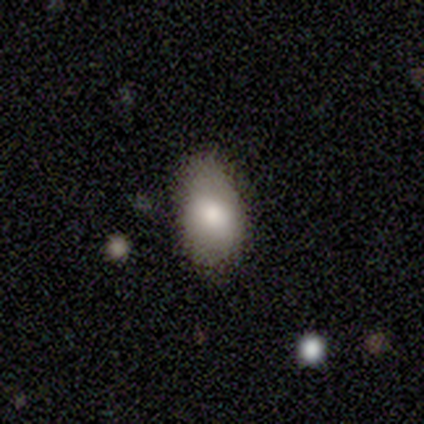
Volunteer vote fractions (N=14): smooth-or-featured: smooth: 79% | featured or disk: 21% | star or artifact: 0%
  how-rounded: in between: 82% | round: 18% | cigar-shaped: 0%
  merging: none: 64% | minor disturbance: 36% | major disturbance: 0% | merger: 0%